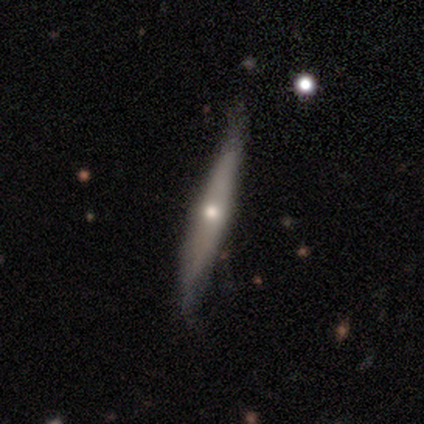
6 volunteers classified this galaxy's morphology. Smooth or featured?
  - featured or disk: 83% *
  - smooth: 17%
  - star or artifact: 0%
Edge-on disk?
  - yes: 100% *
  - no: 0%
Edge-on bulge?
  - rounded: 100% *
  - boxy: 0%
  - none: 0%
Merging?
  - none: 83% *
  - minor disturbance: 17%
  - major disturbance: 0%
  - merger: 0%